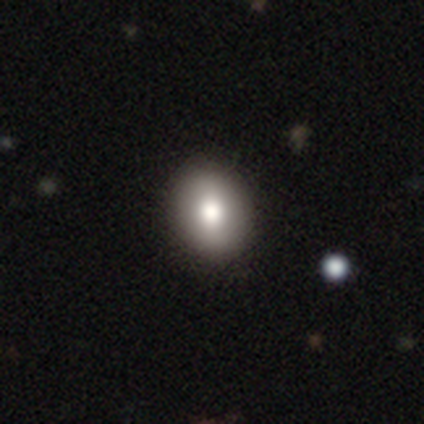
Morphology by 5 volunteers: Volunteers were most divided on "smooth or featured": smooth: 80%, star or artifact: 20%, featured or disk: 0%. More confident: how rounded — in between (100%); merging — none (100%).